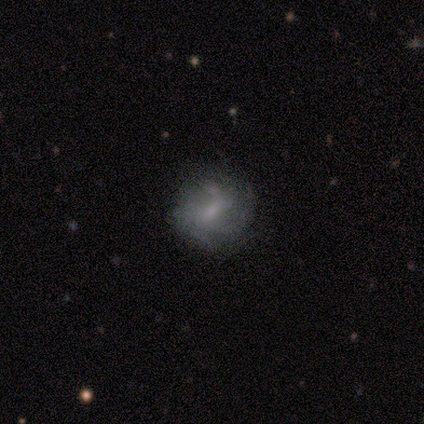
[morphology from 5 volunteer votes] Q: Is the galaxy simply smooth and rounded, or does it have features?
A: featured or disk — 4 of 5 (80%).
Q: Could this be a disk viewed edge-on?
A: no — 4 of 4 (100%).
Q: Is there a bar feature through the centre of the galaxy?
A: weak — 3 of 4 (75%).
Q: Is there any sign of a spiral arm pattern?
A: yes — 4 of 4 (100%).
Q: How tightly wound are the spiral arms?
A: tight — 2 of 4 (50%, tied with medium).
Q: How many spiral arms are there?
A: can't tell — 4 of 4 (100%).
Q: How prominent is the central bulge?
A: small — 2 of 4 (50%).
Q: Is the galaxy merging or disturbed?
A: none — 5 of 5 (100%).